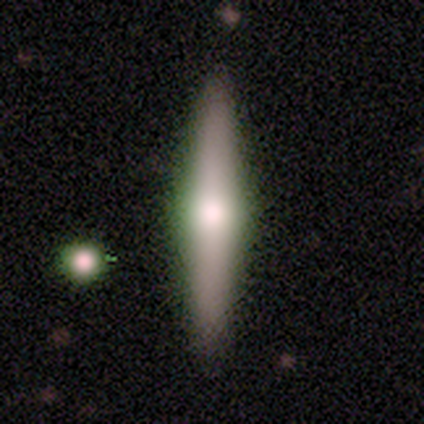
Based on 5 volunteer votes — A smooth galaxy with no disk features (100%) that is cigar-shaped (80%). Merging: none (100%).